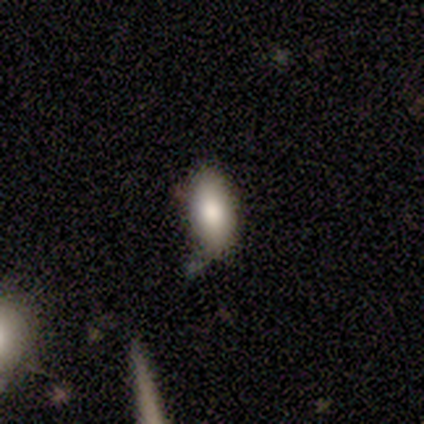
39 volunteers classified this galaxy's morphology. smooth 92%, star or artifact 5%, featured or disk 3%. Down the decision tree: how rounded — in between (86%); merging — none (81%).